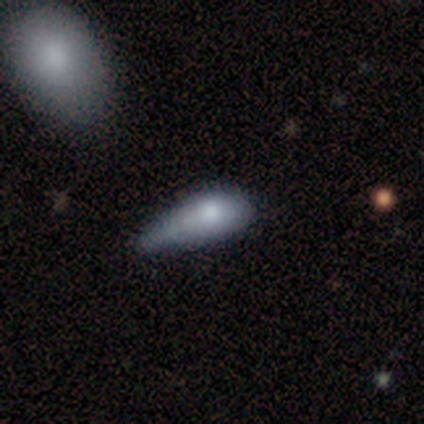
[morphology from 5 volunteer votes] A smooth galaxy with no disk features (60%) that is cigar-shaped (67%).

Vote fractions:
- Smooth or featured? smooth: 60% / featured or disk: 40% / star or artifact: 0%
- How rounded? cigar-shaped: 67% / in between: 33% / round: 0%
- Merging? major disturbance: 80% / none: 20% / minor disturbance: 0% / merger: 0%